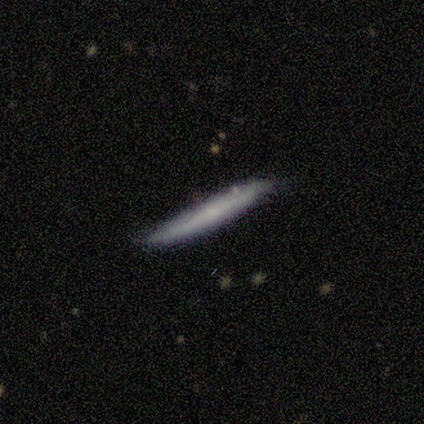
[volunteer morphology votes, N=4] This appears to be a smooth galaxy with no disk features (75%) that is cigar-shaped (100%). Merging: none (50%).